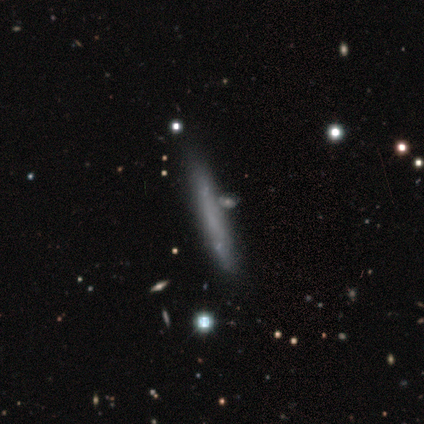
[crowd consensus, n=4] This appears to be a smooth galaxy with no disk features (50%, tied with featured or disk) that is cigar-shaped (100%). Merging: none (50%).